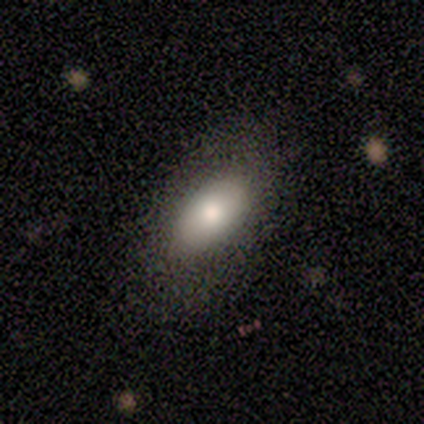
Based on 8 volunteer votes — Overall: smooth (88%). How rounded: in between (100%). Merging: none (86%).